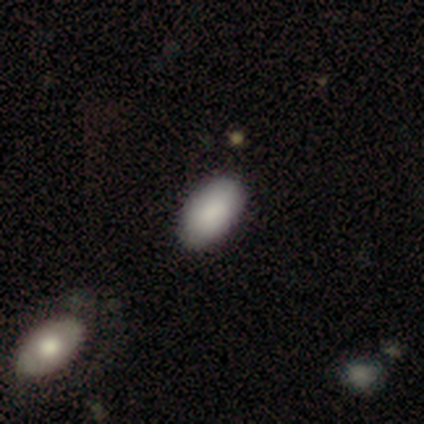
Volunteers were most divided on "how rounded": in between: 75%, round: 25%, cigar-shaped: 0%. More confident: smooth or featured — smooth (100%); merging — none (100%).